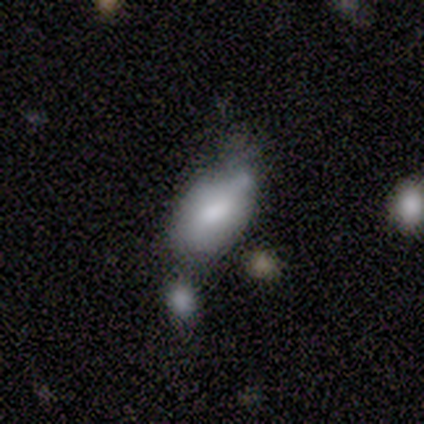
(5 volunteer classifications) This is likely a smooth galaxy (60%). How rounded: clearly in between (100%). Merging: likely minor disturbance (67%).